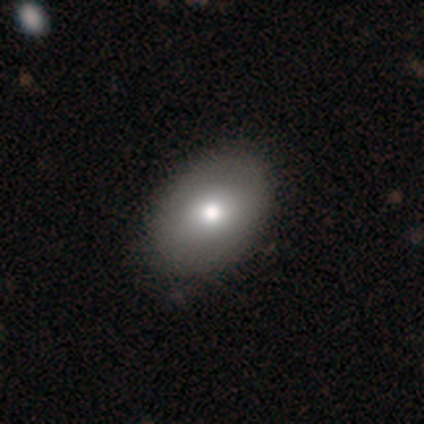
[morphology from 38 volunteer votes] type=smooth (84%); roundness=in between (75%); merging=none (62%).